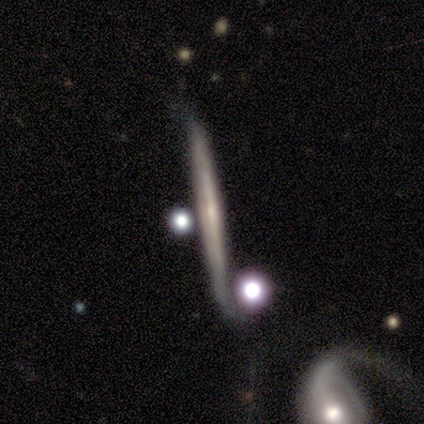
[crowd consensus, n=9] smooth_or_featured: featured or disk (p=0.78) [alt: smooth p=0.22]
disk_edge_on: yes (p=1.00)
edge_on_bulge: none (p=0.71) [alt: boxy p=0.14]
merging: none (p=0.67) [alt: major disturbance p=0.22]